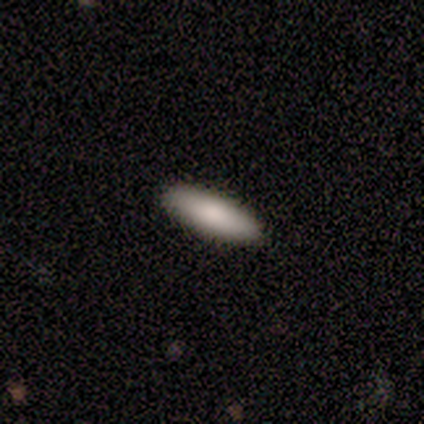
This is clearly a smooth galaxy (89%). How rounded: possibly in between (50%, tied with cigar-shaped). Merging: clearly none (92%).